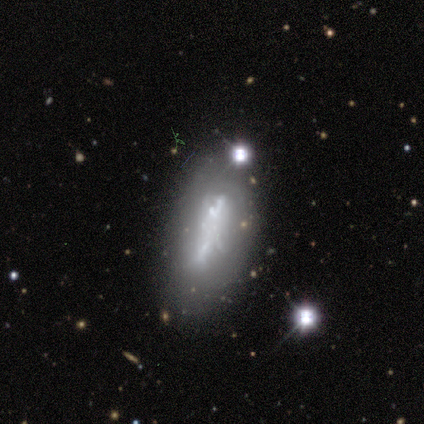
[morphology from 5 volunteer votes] smooth_or_featured: featured or disk (p=0.80) [alt: smooth p=0.20]
disk_edge_on: no (p=0.75) [alt: yes p=0.25]
bar: no (p=0.67) [alt: strong p=0.33]
has_spiral_arms: no (p=1.00)
bulge_size: none (p=1.00)
merging: none (p=0.60) [alt: minor disturbance p=0.20]